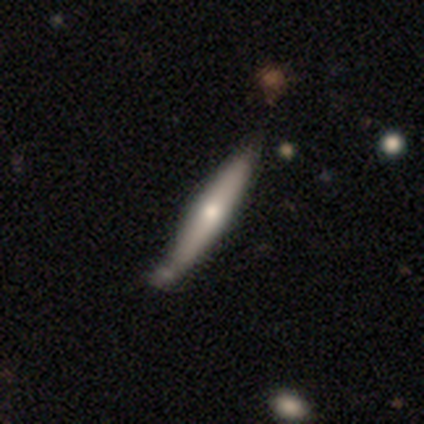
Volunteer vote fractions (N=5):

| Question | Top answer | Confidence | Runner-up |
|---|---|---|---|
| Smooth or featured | featured or disk | 60% | smooth (40%) |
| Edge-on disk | yes | 100% | — |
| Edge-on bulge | rounded | 67% | none (33%) |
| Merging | none | 60% | minor disturbance (20%) |